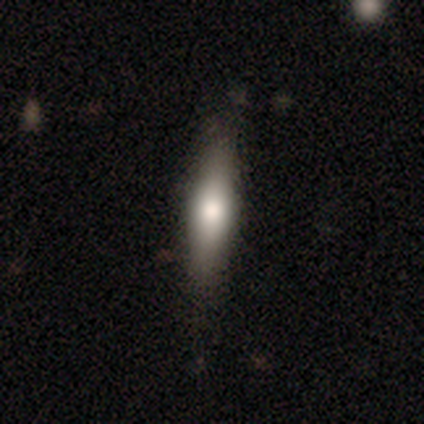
Q: Smooth or featured?
A: smooth (59%); runner-up: featured or disk (36%)
Q: How rounded?
A: cigar-shaped (82%); runner-up: in between (18%)
Q: Merging?
A: none (81%); runner-up: minor disturbance (14%)